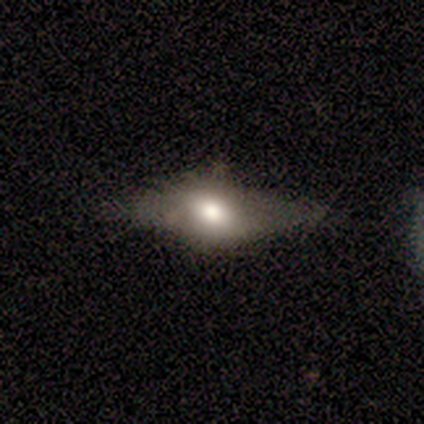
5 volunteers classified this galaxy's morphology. type=smooth (60%); roundness=in between (67%); merging=none (40%, tied with minor disturbance).